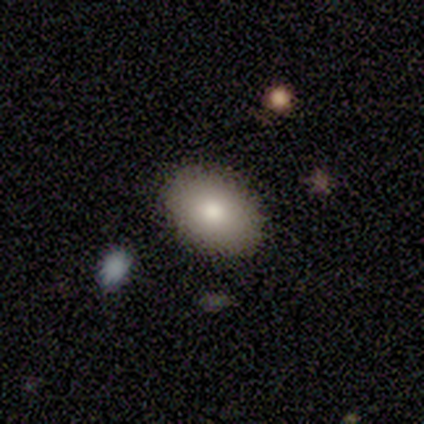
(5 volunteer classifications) This appears to be a smooth galaxy with no disk features (100%) that is in between round and cigar-shaped (100%). Merging: none (100%).